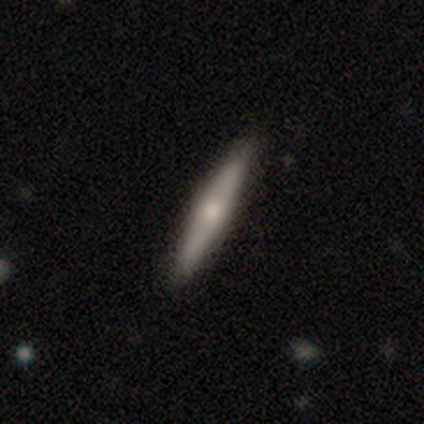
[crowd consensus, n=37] A smooth galaxy with no disk features (62%) that is cigar-shaped (87%). Merging: none (89%).